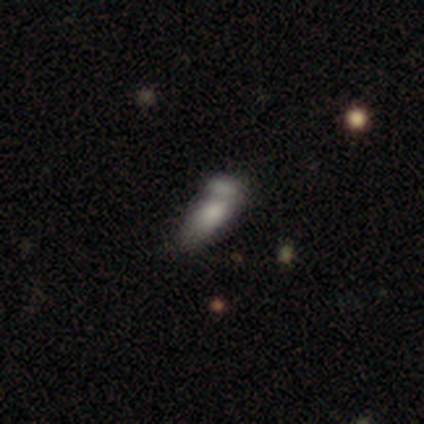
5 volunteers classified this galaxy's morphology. Q: Smooth or featured?
A: smooth (60%); runner-up: featured or disk (40%)
Q: How rounded?
A: cigar-shaped (67%); runner-up: in between (33%)
Q: Merging?
A: none (40%); tied with: merger (40%)